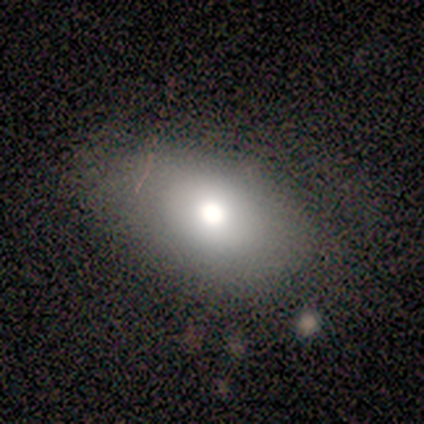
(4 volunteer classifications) Overall: smooth (50%; featured or disk 25%). How rounded: round (50%, tied with in between). Merging: none (67%; major disturbance 33%).